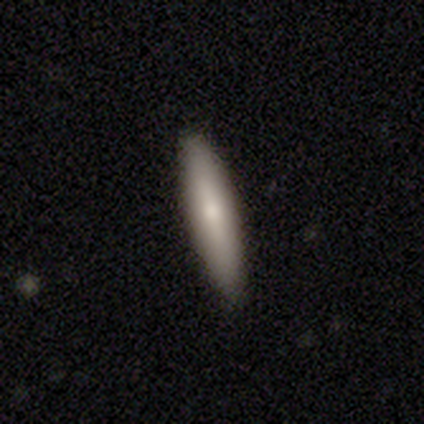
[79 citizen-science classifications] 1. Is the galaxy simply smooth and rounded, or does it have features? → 73% smooth, 23% featured or disk, 4% star or artifact.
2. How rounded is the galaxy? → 81% cigar-shaped, 19% in between, 0% round.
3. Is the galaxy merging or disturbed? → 49% none, 3% minor disturbance, 3% merger, 0% major disturbance.